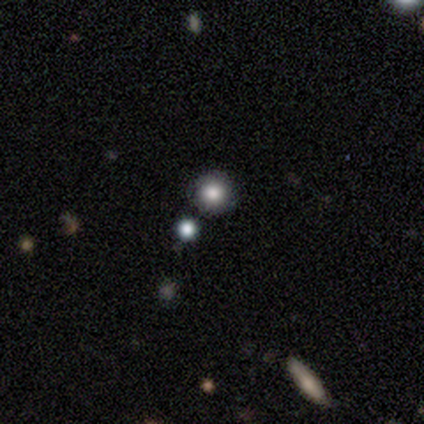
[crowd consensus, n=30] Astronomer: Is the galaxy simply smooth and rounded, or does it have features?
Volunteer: smooth — 67%.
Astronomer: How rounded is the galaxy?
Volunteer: round — 95%.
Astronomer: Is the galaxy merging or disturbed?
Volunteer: none — 87%.